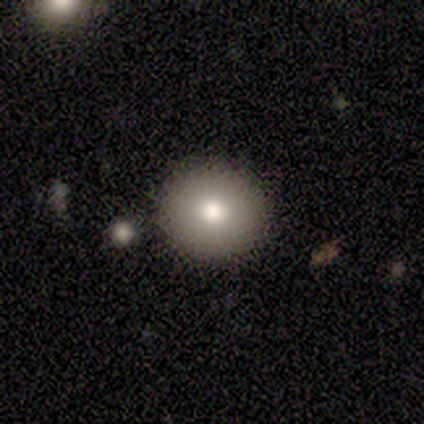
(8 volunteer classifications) A smooth galaxy with no disk features (100%) that is round (100%).

Vote fractions:
- Smooth or featured? smooth: 100% / featured or disk: 0% / star or artifact: 0%
- How rounded? round: 100% / in between: 0% / cigar-shaped: 0%
- Merging? none: 62% / minor disturbance: 25% / merger: 12% / major disturbance: 0%